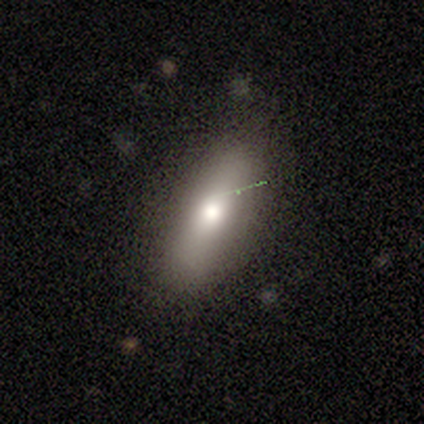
Smooth or featured: smooth — 80% (featured or disk — 20%)
How rounded: in between — 75% (cigar-shaped — 25%)
Merging: none — 60% (minor disturbance — 40%)